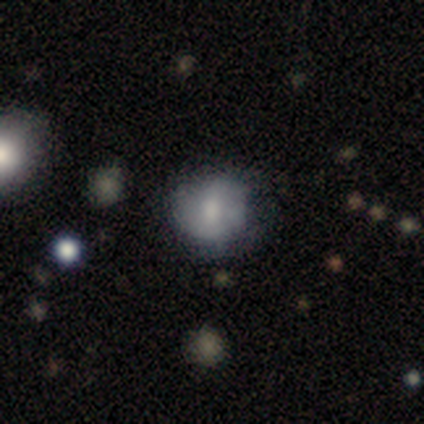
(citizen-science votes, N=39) Smooth or featured: smooth — 62% (featured or disk — 31%)
How rounded: round — 83% (in between — 17%)
Merging: none — 58% (minor disturbance — 31%)